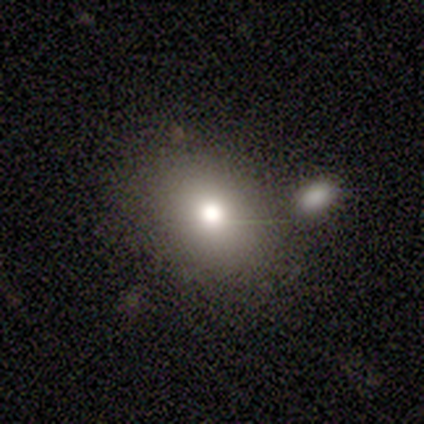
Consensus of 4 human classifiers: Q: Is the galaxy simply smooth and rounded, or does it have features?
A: star or artifact — 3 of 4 (75%).